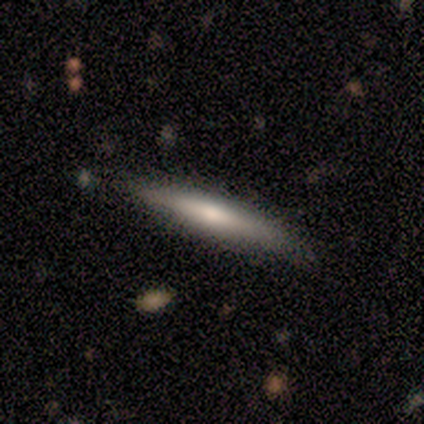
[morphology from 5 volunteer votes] smooth-or-featured: featured or disk: 60% | smooth: 40% | star or artifact: 0%
  disk-edge-on: yes: 100% | no: 0%
    edge-on-bulge: rounded: 67% | none: 33% | boxy: 0%
  merging: none: 60% | minor disturbance: 40% | major disturbance: 0% | merger: 0%